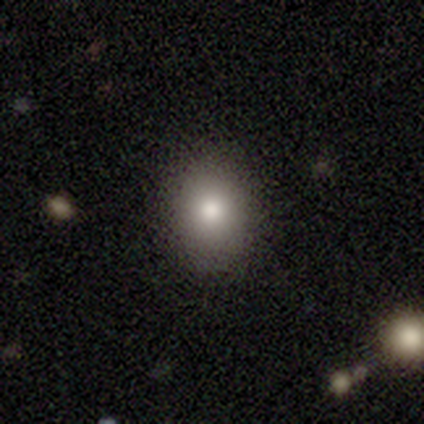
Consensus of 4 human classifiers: A smooth galaxy with no disk features (50%, tied with featured or disk) that is in between round and cigar-shaped (100%). Merging: none (75%).